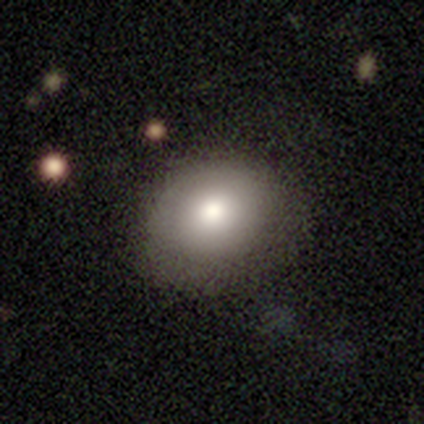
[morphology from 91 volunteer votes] Smooth or featured: smooth — 80% (featured or disk — 14%)
How rounded: round — 55% (in between — 45%)
Merging: none — 71% (minor disturbance — 20%)